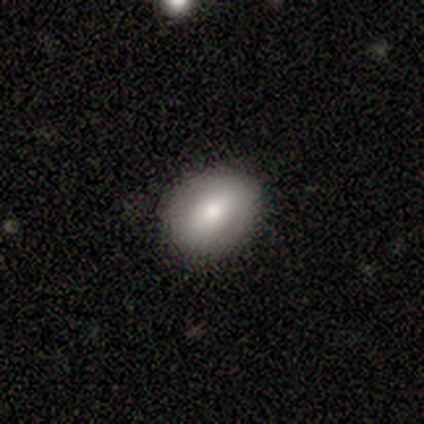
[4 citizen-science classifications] A featured or disk galaxy (50%) with no bar (100%), no spiral arms (100%) and a large central bulge (50%, tied with none).

Vote fractions:
- Smooth or featured? featured or disk: 50% / smooth: 25% / star or artifact: 25%
- Edge-on disk? no: 100% / yes: 0%
- Bar? no: 100% / strong: 0% / weak: 0%
- Spiral arms? no: 100% / yes: 0%
- Bulge size? large: 50% (tied) / none: 50% (tied) / dominant: 0% / moderate: 0% / small: 0%
- Merging? none: 100% / minor disturbance: 0% / major disturbance: 0% / merger: 0%